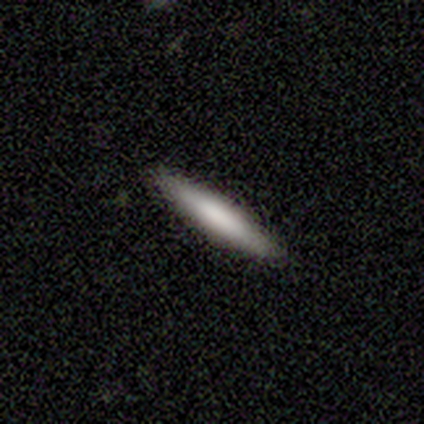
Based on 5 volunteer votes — This appears to be a smooth galaxy with no disk features (100%) that is cigar-shaped (100%). Merging: none (100%).